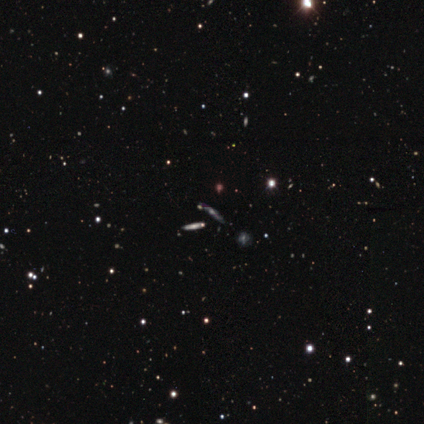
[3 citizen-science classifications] Smooth or featured?
  - featured or disk: 67% *
  - star or artifact: 33%
  - smooth: 0%
Edge-on disk?
  - yes: 100% *
  - no: 0%
Edge-on bulge?
  - rounded: 100% *
  - boxy: 0%
  - none: 0%
Merging?
  - none: 100% *
  - minor disturbance: 0%
  - major disturbance: 0%
  - merger: 0%